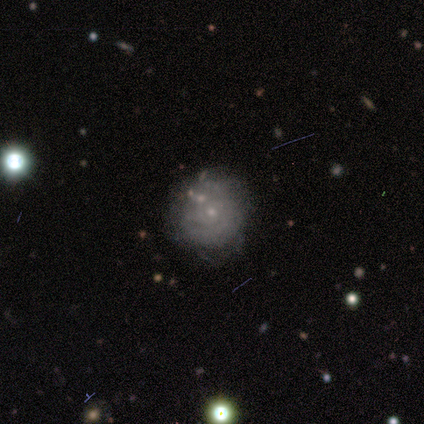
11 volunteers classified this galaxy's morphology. smooth-or-featured: featured or disk: 64% | smooth: 36% | star or artifact: 0%
  disk-edge-on: no: 100% | yes: 0%
    bar: no: 86% | weak: 14% | strong: 0%
    has-spiral-arms: yes: 86% | no: 14%
      spiral-winding: tight: 83% | medium: 17% | loose: 0%
      spiral-arm-count: can't tell: 83% | 2: 17% | 1: 0% | 3: 0% | 4: 0% | more than 4: 0%
    bulge-size: small: 100% | dominant: 0% | large: 0% | moderate: 0% | none: 0%
  merging: none: 64% | minor disturbance: 27% | merger: 9% | major disturbance: 0%